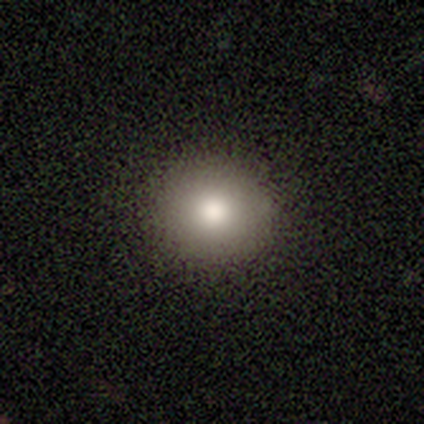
This appears to be a smooth galaxy with no disk features (100%) that is round (100%). Merging: none (100%).